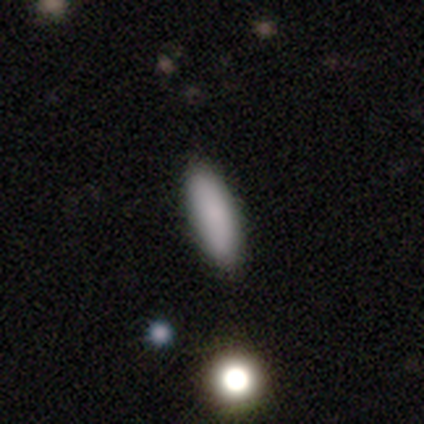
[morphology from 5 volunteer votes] Smooth or featured?
  - smooth: 100% *
  - featured or disk: 0%
  - star or artifact: 0%
How rounded?
  - cigar-shaped: 60% *
  - in between: 40%
  - round: 0%
Merging?
  - none: 100% *
  - minor disturbance: 0%
  - major disturbance: 0%
  - merger: 0%